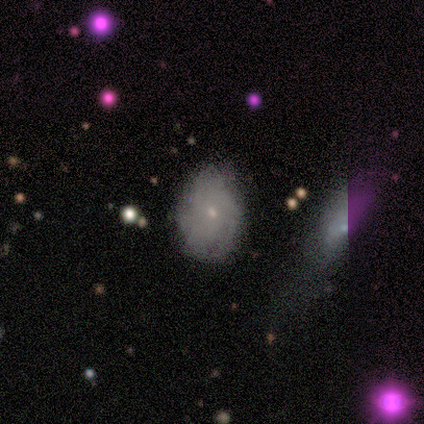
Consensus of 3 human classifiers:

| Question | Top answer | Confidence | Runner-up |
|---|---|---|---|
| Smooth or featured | smooth | 100% | — |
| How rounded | in between | 100% | — |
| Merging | none | 67% | minor disturbance (33%) |